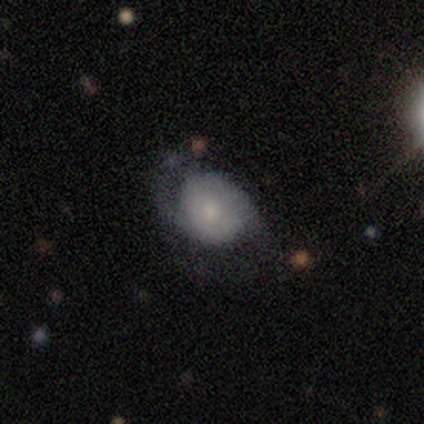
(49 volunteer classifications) This appears to be a featured or disk galaxy (69%) with no bar (85%), 2 (81%) medium (44%) spiral arms (94%) and a small central bulge (56%). Merging: minor disturbance (40%).